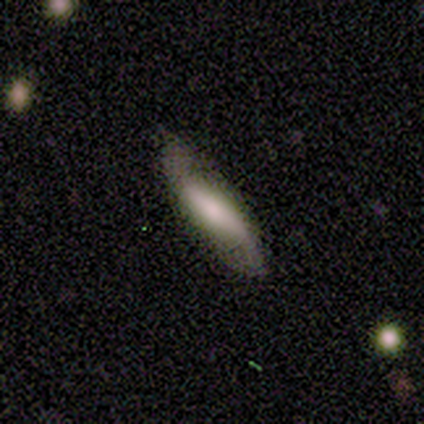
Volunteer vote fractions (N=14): Volunteers were most divided on "bar": strong: 50%, no: 33%, weak: 17%. More confident: spiral arms — yes (83%); spiral winding — loose (80%); spiral arm count — 2 (80%); edge-on disk — no (67%); smooth or featured — featured or disk (64%); merging — none (64%); bulge size — large (50%).